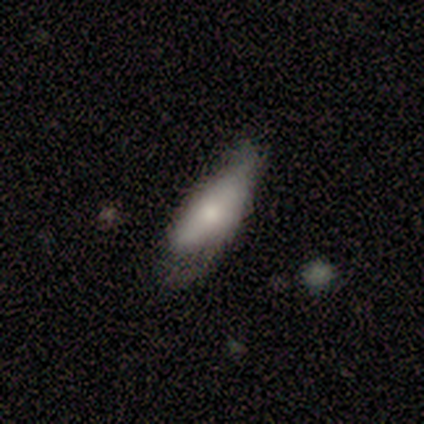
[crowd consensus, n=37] This appears to be a smooth galaxy with no disk features (62%) that is in between round and cigar-shaped (87%). Merging: none (44%, tied with minor disturbance).